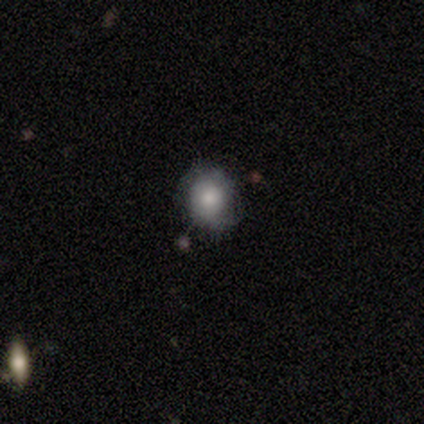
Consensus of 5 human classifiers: This is clearly a smooth galaxy (100%). How rounded: clearly round (100%). Merging: likely minor disturbance (60%).